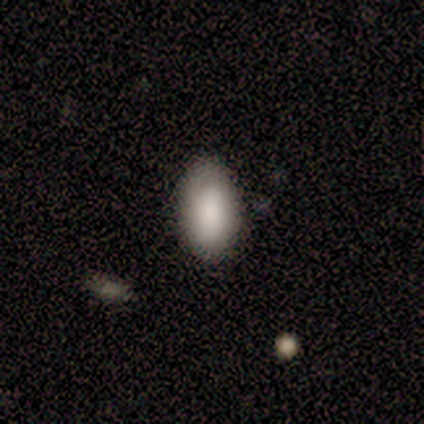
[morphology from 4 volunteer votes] This is clearly a smooth galaxy (100%). How rounded: clearly in between (100%). Merging: likely none (75%).